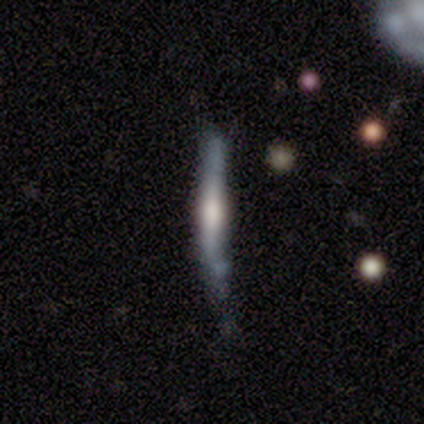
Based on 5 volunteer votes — Q: Smooth or featured?
A: smooth (40%); tied with: featured or disk (40%)
Q: How rounded?
A: cigar-shaped (100%)
Q: Merging?
A: minor disturbance (50%); runner-up: none (25%)